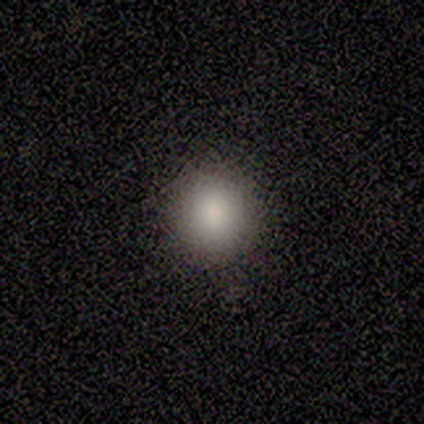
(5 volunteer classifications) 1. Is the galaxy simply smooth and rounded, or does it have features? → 100% smooth, 0% featured or disk, 0% star or artifact.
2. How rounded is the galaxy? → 100% round, 0% in between, 0% cigar-shaped.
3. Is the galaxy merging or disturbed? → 100% none, 0% minor disturbance, 0% major disturbance, 0% merger.